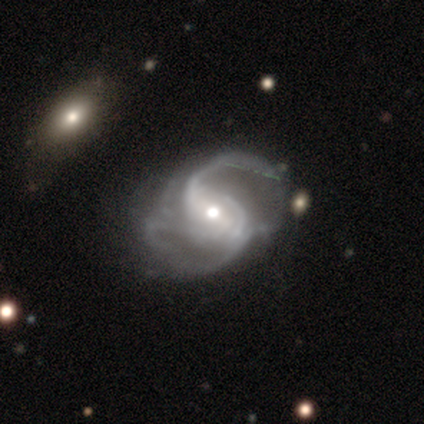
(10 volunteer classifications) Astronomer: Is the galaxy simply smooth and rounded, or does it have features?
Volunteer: featured or disk — 100%.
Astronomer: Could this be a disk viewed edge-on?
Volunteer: no — 100%.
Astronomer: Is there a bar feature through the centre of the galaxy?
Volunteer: strong — 40%, tied with no at 40%.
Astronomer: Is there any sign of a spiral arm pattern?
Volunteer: yes — 100%.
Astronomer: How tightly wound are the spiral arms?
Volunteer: loose — 50% (runner-up: medium, 40%).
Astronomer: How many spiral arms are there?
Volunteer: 2 — 60%.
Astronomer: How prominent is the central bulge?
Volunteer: moderate — 80%.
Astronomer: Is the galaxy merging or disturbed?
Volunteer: none — 80%.